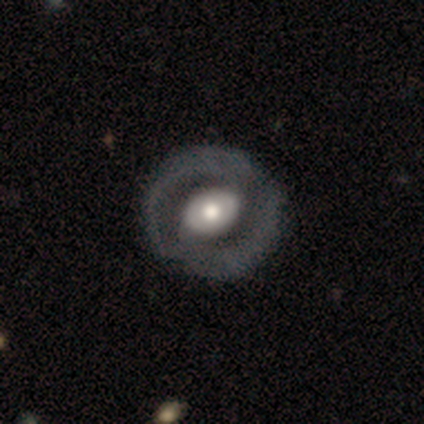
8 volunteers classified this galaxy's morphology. Q: Smooth or featured?
A: featured or disk (75%); runner-up: smooth (25%)
Q: Edge-on disk?
A: no (100%)
Q: Bar?
A: no (67%); runner-up: weak (33%)
Q: Spiral arms?
A: yes (50%); tied with: no (50%)
Q: Spiral winding?
A: tight (67%); runner-up: medium (33%)
Q: Spiral arm count?
A: 2 (67%); runner-up: can't tell (33%)
Q: Bulge size?
A: moderate (67%); runner-up: large (17%)
Q: Merging?
A: none (75%); runner-up: major disturbance (25%)